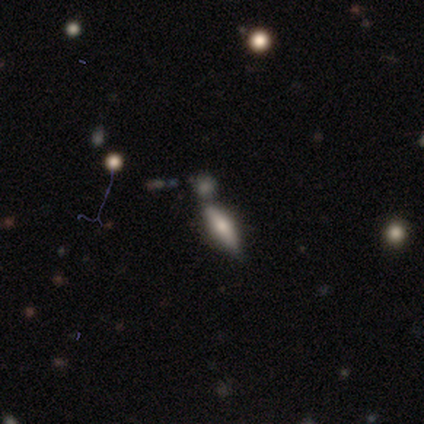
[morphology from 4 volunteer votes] smooth-or-featured: smooth: 75% | featured or disk: 25% | star or artifact: 0%
  how-rounded: cigar-shaped: 100% | round: 0% | in between: 0%
  merging: none: 100% | minor disturbance: 0% | major disturbance: 0% | merger: 0%